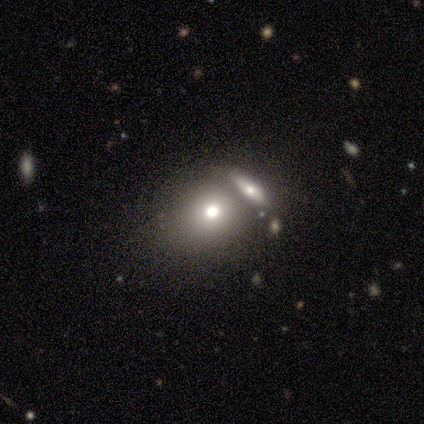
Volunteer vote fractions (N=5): Smooth or featured? 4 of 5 (80%) said smooth. How rounded? 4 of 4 (100%) said round. Merging? 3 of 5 (60%) said merger.